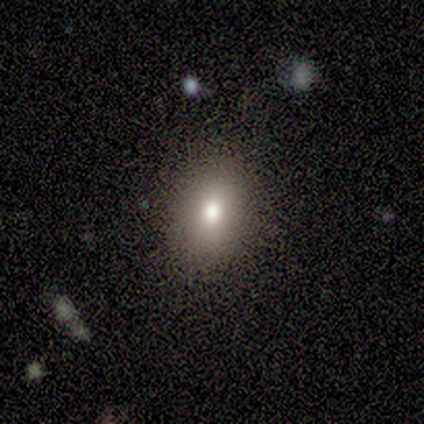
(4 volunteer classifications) Smooth or featured: smooth — 75% (featured or disk — 25%)
How rounded: in between — 67% (cigar-shaped — 33%)
Merging: none — 50% (minor disturbance — 25%)